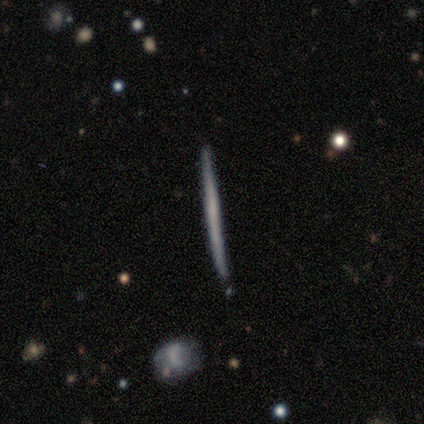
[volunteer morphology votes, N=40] Smooth or featured? 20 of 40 (50%) said featured or disk. Edge-on disk? 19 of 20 (95%) said yes. Edge-on bulge? 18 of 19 (95%) said none. Merging? 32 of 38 (84%) said none.